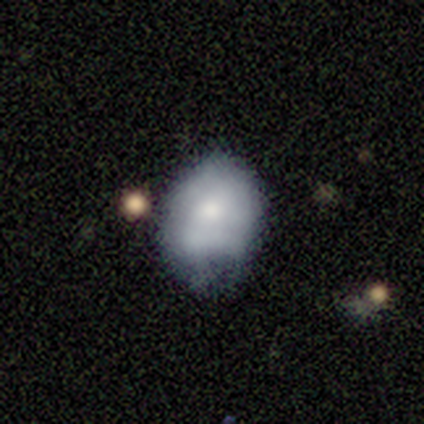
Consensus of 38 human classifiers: Smooth or featured?
  - smooth: 61% *
  - featured or disk: 26%
  - star or artifact: 13%
How rounded?
  - in between: 52% *
  - round: 48%
  - cigar-shaped: 0%
Merging?
  - none: 48% *
  - minor disturbance: 36%
  - major disturbance: 12%
  - merger: 3%